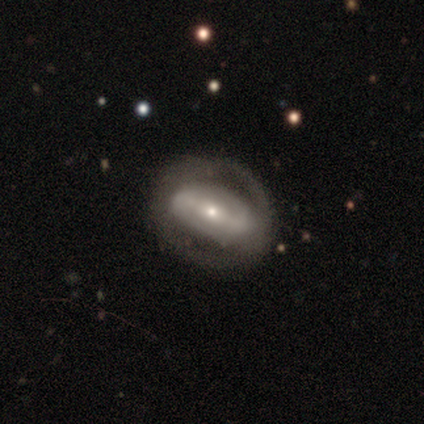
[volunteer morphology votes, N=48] featured or disk 77%, smooth 15%, star or artifact 8%. Down the decision tree: edge-on disk — no (95%); bar — strong (66%); spiral arms — yes (54%); spiral arm count — 2 (68%); spiral winding — tight (53%); bulge size — small (57%); merging — none (75%).